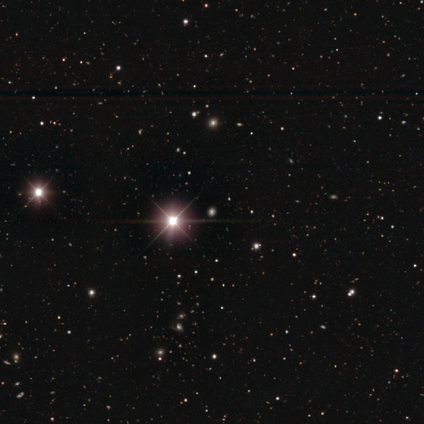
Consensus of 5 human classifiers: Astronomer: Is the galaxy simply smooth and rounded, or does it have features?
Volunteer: star or artifact — 100%.